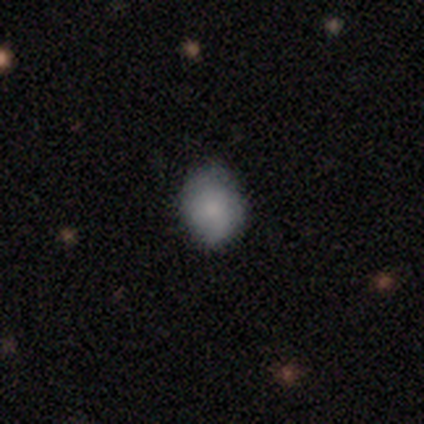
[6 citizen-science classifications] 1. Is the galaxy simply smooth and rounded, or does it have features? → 67% smooth, 33% featured or disk, 0% star or artifact.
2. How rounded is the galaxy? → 50% round (tied), 50% in between (tied), 0% cigar-shaped.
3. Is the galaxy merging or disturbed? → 50% none (tied), 50% minor disturbance (tied), 0% major disturbance, 0% merger.